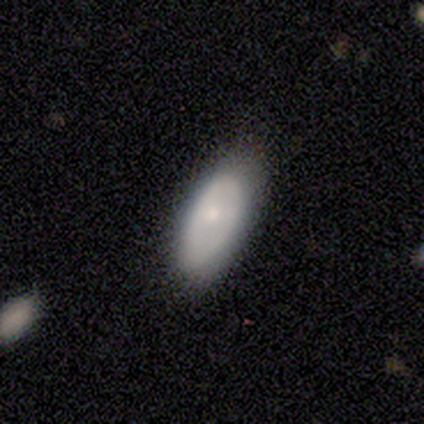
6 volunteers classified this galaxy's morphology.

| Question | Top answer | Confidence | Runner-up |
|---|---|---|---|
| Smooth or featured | smooth | 50% | tied: featured or disk (50%) |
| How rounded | in between | 100% | — |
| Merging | none | 67% | minor disturbance (33%) |